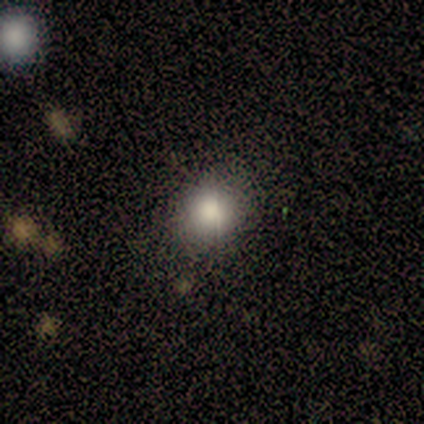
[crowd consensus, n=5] This is clearly a smooth galaxy (100%). How rounded: clearly round (80%). Merging: clearly none (100%).